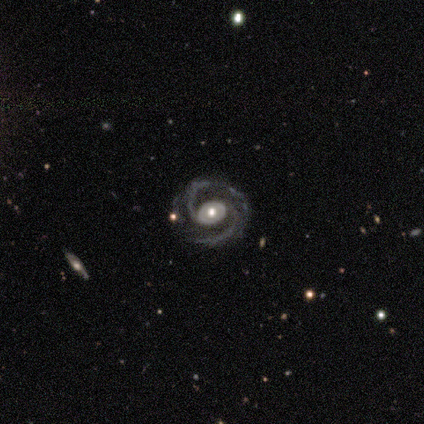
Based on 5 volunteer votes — Q: Smooth or featured?
A: featured or disk (100%)
Q: Edge-on disk?
A: no (100%)
Q: Bar?
A: no (100%)
Q: Spiral arms?
A: yes (100%)
Q: Spiral winding?
A: medium (80%); runner-up: tight (20%)
Q: Spiral arm count?
A: 2 (60%); runner-up: 3 (40%)
Q: Bulge size?
A: moderate (60%); runner-up: small (40%)
Q: Merging?
A: none (100%)